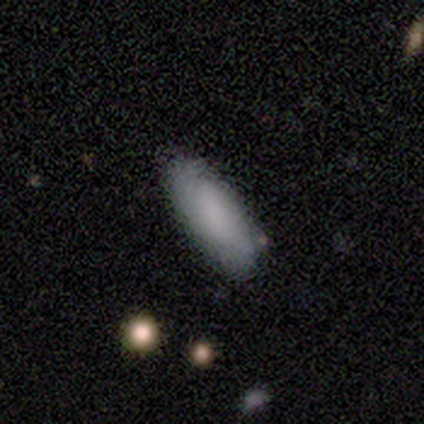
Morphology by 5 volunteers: smooth-or-featured: featured or disk: 60% | smooth: 40% | star or artifact: 0%
  disk-edge-on: yes: 67% | no: 33%
    edge-on-bulge: none: 50% (tied) | rounded: 50% (tied) | boxy: 0%
  merging: none: 80% | minor disturbance: 20% | major disturbance: 0% | merger: 0%